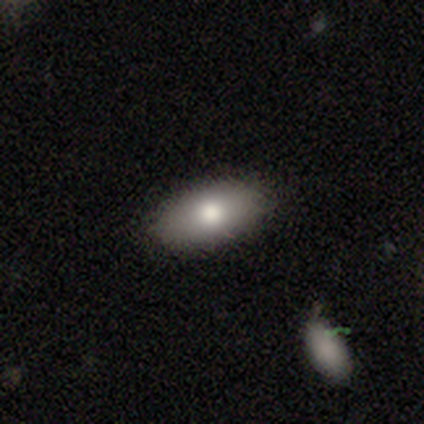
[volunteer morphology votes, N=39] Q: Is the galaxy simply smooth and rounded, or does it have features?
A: smooth — 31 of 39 (79%).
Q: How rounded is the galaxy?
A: in between — 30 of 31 (97%).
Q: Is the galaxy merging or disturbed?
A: none — 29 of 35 (83%).